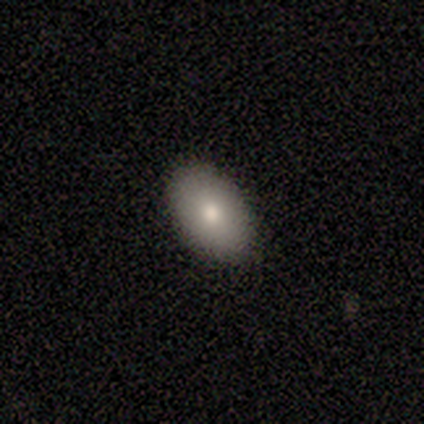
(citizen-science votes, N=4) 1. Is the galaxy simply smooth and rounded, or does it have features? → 100% smooth, 0% featured or disk, 0% star or artifact.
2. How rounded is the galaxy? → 100% in between, 0% round, 0% cigar-shaped.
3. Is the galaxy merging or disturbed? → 100% none, 0% minor disturbance, 0% major disturbance, 0% merger.